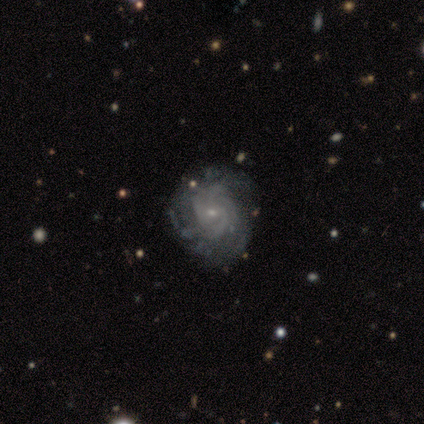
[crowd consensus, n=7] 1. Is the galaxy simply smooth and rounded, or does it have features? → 86% featured or disk, 14% smooth, 0% star or artifact.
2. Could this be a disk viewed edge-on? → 100% no, 0% yes.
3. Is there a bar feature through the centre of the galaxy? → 67% no, 33% weak, 0% strong.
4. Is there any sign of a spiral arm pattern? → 100% yes, 0% no.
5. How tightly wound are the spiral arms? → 67% tight, 33% medium, 0% loose.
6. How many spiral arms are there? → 50% can't tell, 33% 4, 17% 3, 0% 1, 0% 2, 0% more than 4.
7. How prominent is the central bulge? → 100% small, 0% dominant, 0% large, 0% moderate, 0% none.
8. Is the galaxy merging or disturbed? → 100% none, 0% minor disturbance, 0% major disturbance, 0% merger.